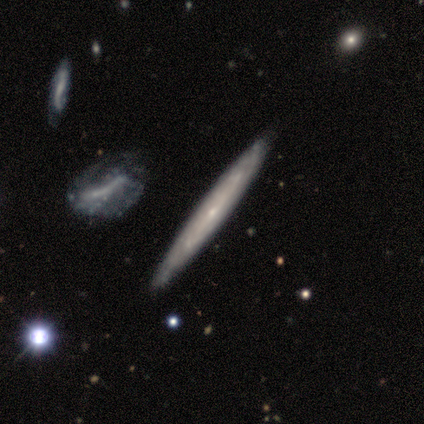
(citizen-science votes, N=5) Volunteers were most divided on "bar": no: 67%, strong: 33%, weak: 0%. More confident: merging — none (100%); smooth or featured — featured or disk (80%); edge-on disk — no (75%); spiral arms — no (67%); bulge size — small (67%).